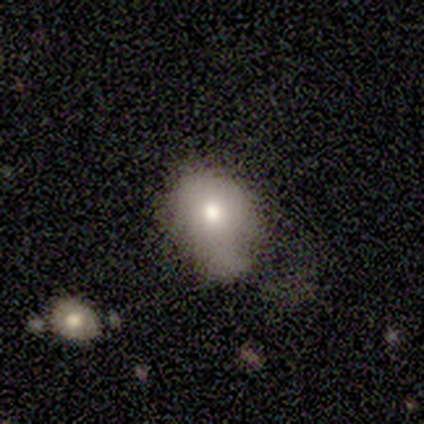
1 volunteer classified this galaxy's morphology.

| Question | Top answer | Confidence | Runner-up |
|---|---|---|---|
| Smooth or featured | smooth | 100% | — |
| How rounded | round | 100% | — |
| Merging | minor disturbance | 100% | — |